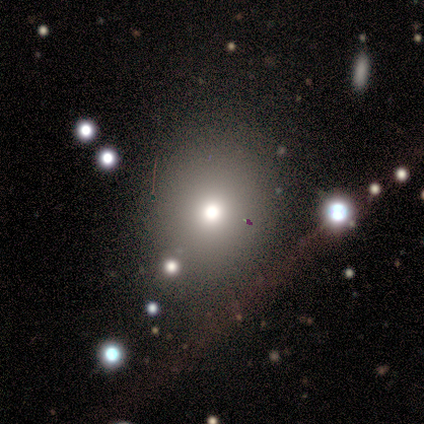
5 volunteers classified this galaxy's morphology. This is clearly a smooth galaxy (80%). How rounded: likely round (75%). Merging: likely none (75%).